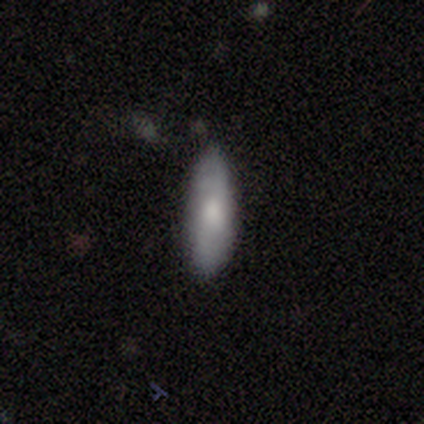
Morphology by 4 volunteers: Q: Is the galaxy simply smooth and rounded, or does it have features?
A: smooth — 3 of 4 (75%).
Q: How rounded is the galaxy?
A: in between — 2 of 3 (67%).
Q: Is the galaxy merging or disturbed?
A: none — 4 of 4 (100%).